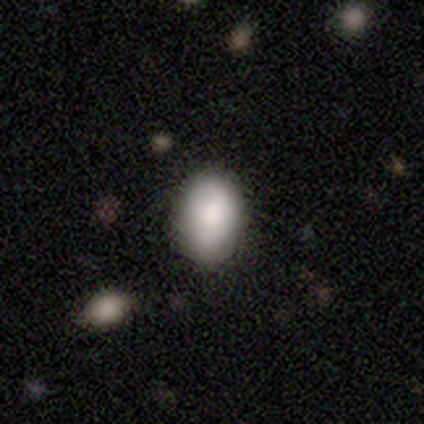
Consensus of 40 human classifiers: Morphology: type=smooth (92%); roundness=in between (81%); merging=none (85%).